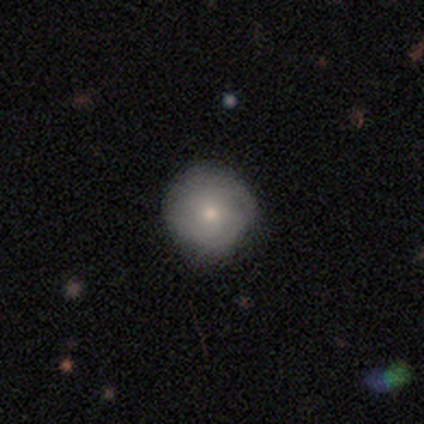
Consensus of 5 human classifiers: smooth 60%, featured or disk 40%, star or artifact 0%. Down the decision tree: how rounded — round (100%); merging — none (80%).